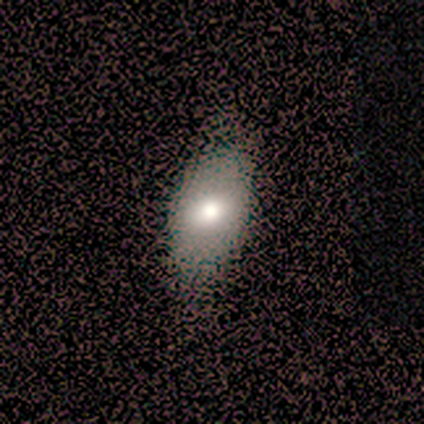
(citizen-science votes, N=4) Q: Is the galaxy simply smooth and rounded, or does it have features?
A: smooth — 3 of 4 (75%).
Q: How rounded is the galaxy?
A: in between — 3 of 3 (100%).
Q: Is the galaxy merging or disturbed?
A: none — 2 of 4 (50%, tied with minor disturbance).